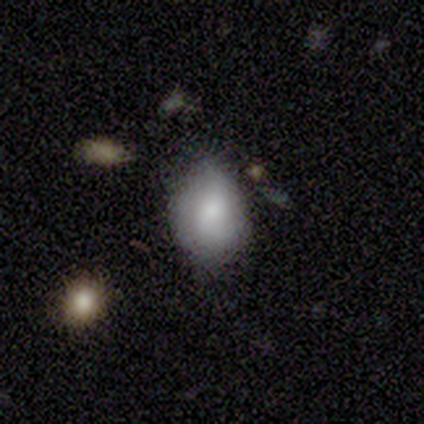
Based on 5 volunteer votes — Smooth or featured?
  - smooth: 80% *
  - featured or disk: 20%
  - star or artifact: 0%
How rounded?
  - round: 50% * (tied)
  - in between: 50% * (tied)
  - cigar-shaped: 0%
Merging?
  - none: 60% *
  - minor disturbance: 40%
  - major disturbance: 0%
  - merger: 0%